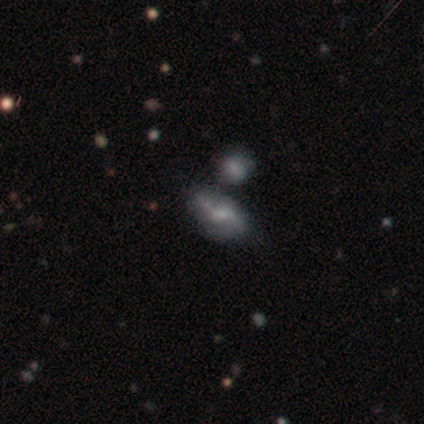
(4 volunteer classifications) A smooth galaxy with no disk features (50%, tied with featured or disk) that is in between round and cigar-shaped (100%).

Vote fractions:
- Smooth or featured? smooth: 50% (tied) / featured or disk: 50% (tied) / star or artifact: 0%
- How rounded? in between: 100% / round: 0% / cigar-shaped: 0%
- Merging? none: 50% / minor disturbance: 25% / major disturbance: 25% / merger: 0%